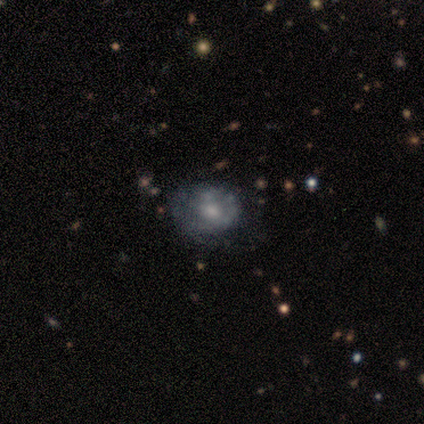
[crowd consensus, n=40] featured or disk 60%, smooth 30%, star or artifact 10%. Down the decision tree: edge-on disk — no (100%); bar — no (92%); spiral arms — no (71%); bulge size — moderate (50%); merging — none (47%).